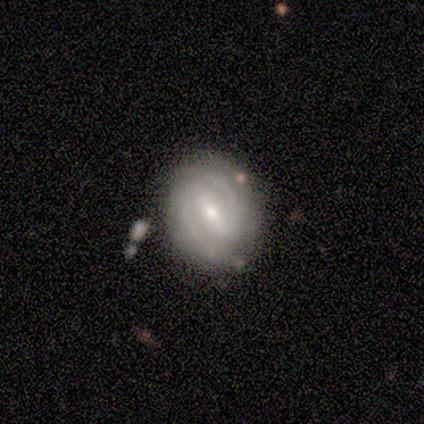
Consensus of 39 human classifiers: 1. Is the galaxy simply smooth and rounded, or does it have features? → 95% featured or disk, 3% smooth, 3% star or artifact.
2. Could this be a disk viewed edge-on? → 100% no, 0% yes.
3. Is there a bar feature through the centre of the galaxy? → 49% weak, 43% strong, 8% no.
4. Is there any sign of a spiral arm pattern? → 89% yes, 11% no.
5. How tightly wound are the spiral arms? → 58% tight, 39% medium, 3% loose.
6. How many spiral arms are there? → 97% 2, 3% 1, 0% 3, 0% 4, 0% more than 4, 0% can't tell.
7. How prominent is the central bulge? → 54% small, 41% moderate, 5% large, 0% dominant, 0% none.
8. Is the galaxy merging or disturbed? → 76% none, 21% minor disturbance, 3% merger, 0% major disturbance.